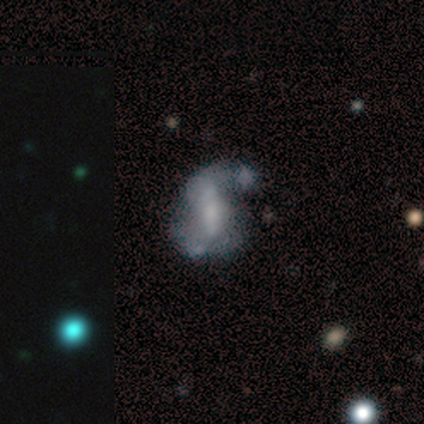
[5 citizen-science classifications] Overall: smooth (40%, tied with featured or disk). How rounded: round (50%, tied with in between). Merging: none (50%; minor disturbance 25%).